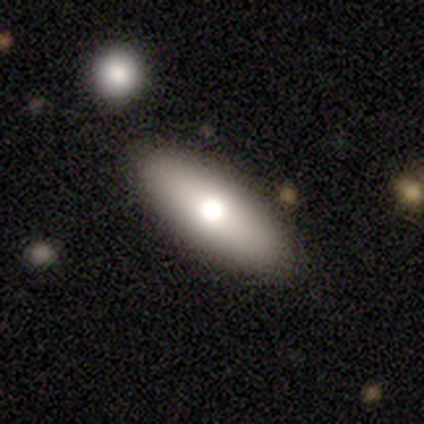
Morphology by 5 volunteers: Q: Smooth or featured?
A: smooth (60%); runner-up: featured or disk (40%)
Q: How rounded?
A: in between (67%); runner-up: cigar-shaped (33%)
Q: Merging?
A: none (80%); runner-up: merger (20%)